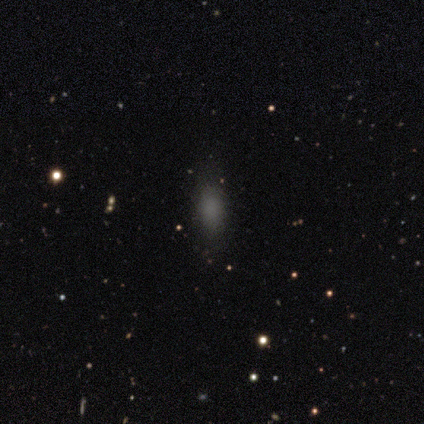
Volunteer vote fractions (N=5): smooth_or_featured: smooth (p=0.80) [alt: star or artifact p=0.20]
how_rounded: in between (p=0.75) [alt: cigar-shaped p=0.25]
merging: none (p=0.75) [alt: major disturbance p=0.25]